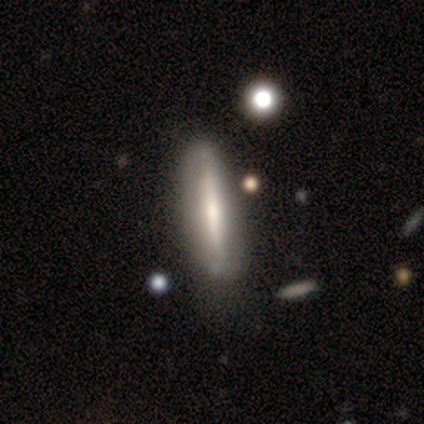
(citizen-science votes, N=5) A featured or disk galaxy (60%) viewed edge-on (67%) with a rounded central bulge (100%). Merging: none (75%).